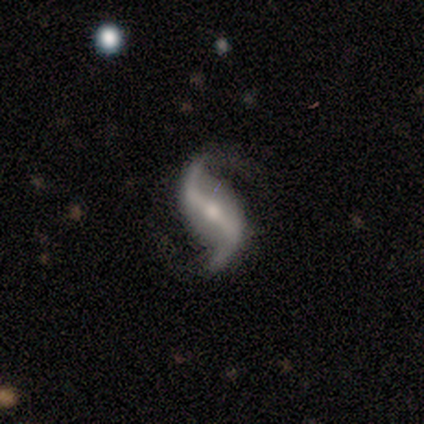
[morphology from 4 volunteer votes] Smooth or featured: featured or disk — 75% (star or artifact — 25%)
Edge-on disk: no — 100%
Bar: strong — 67% (weak — 33%)
Spiral arms: yes — 100%
Spiral winding: loose — 67% (medium — 33%)
Spiral arm count: 2 — 100%
Bulge size: moderate — 100%
Merging: none — 67% (minor disturbance — 33%)